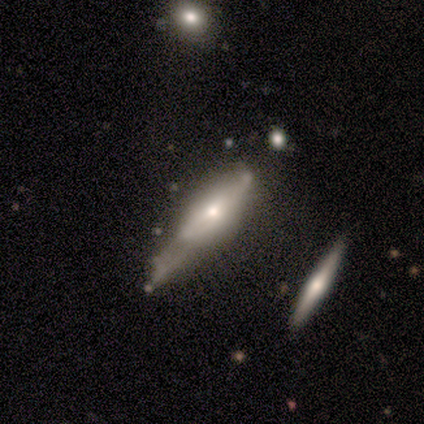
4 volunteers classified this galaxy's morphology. A featured or disk galaxy (100%) viewed edge-on (100%) with a rounded central bulge (50%). Merging: major disturbance (50%).